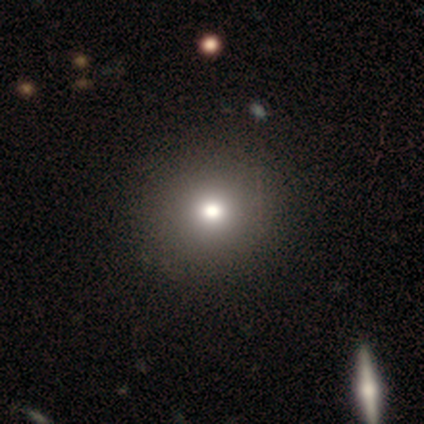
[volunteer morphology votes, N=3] Smooth or featured: smooth — 67% (star or artifact — 33%)
How rounded: round — 100%
Merging: none — 100%